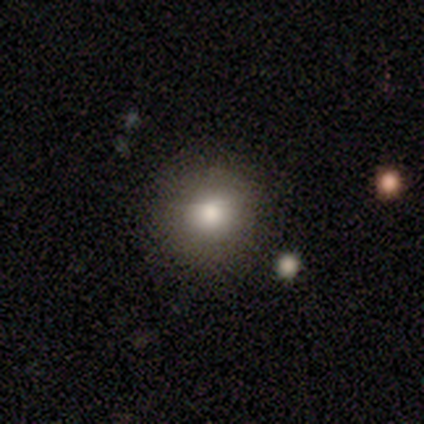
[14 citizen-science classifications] This appears to be a smooth galaxy with no disk features (93%) that is round (92%). Merging: none (85%).